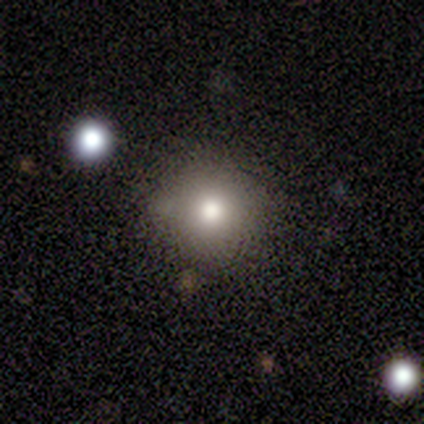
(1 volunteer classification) Smooth or featured?
  - star or artifact: 100% *
  - smooth: 0%
  - featured or disk: 0%